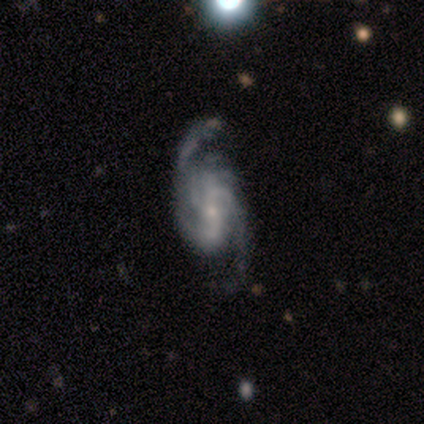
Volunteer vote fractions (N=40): This appears to be a featured or disk galaxy (90%) with no bar (41%), 2 (55%) medium (52%) spiral arms (97%) and a small central bulge (82%). Merging: none (59%).